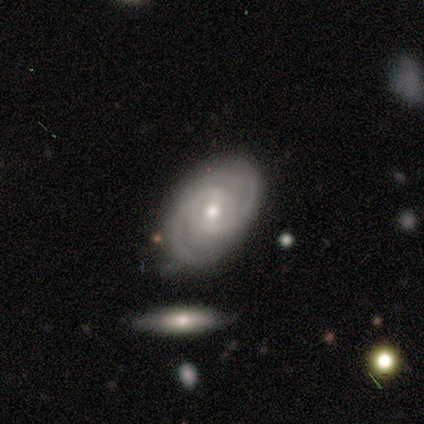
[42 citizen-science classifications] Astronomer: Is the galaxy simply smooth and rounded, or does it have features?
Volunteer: featured or disk — 98%.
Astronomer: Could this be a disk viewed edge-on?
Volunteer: no — 100%.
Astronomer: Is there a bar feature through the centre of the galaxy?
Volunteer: weak — 46% (runner-up: no, 29%).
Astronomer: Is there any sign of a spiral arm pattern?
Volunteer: yes — 100%.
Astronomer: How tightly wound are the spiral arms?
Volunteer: tight — 63%.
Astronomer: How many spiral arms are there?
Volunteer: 2 — 63%.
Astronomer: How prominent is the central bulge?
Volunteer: moderate — 73%.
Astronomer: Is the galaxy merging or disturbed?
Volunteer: none — 73%.